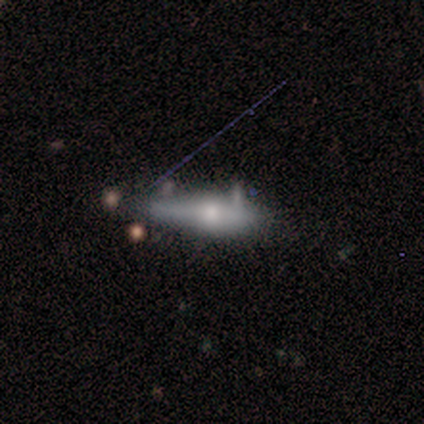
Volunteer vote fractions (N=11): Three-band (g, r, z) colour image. It shows a featured or disk galaxy (64%) viewed edge-on (86%) with a rounded central bulge (67%). Merging: none (40%, tied with minor disturbance).